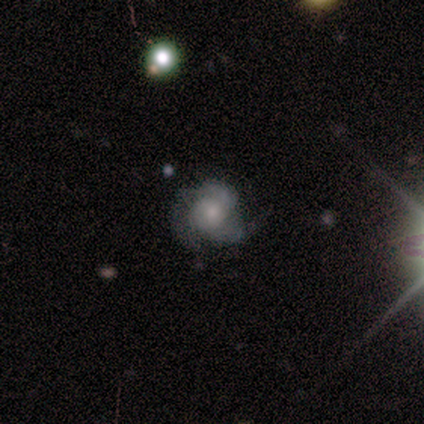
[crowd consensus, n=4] Volunteers were most divided on "spiral winding" (2-way tie): medium: 50%, loose: 50%, tight: 0%; "bulge size" (3-way tie): large: 33%, moderate: 33%, small: 33%, dominant: 0%, none: 0%. More confident: edge-on disk — no (100%); bar — no (100%); spiral arm count — 3 (100%); smooth or featured — featured or disk (75%); spiral arms — yes (67%); merging — minor disturbance (50%).